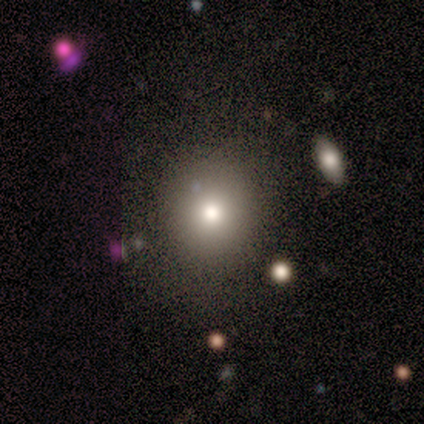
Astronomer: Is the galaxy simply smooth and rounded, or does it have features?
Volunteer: smooth — 79%.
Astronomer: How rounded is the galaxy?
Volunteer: round — 91%.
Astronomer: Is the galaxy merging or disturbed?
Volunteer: none — 92%.